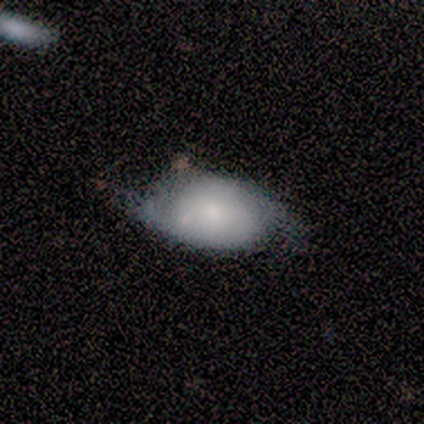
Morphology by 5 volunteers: Volunteers were most divided on "spiral winding" (2-way tie): tight: 50%, loose: 50%, medium: 0%. More confident: edge-on disk — no (100%); bar — no (100%); spiral arm count — 2 (100%); spiral arms — yes (67%); bulge size — small (67%); smooth or featured — featured or disk (60%); merging — none (60%).